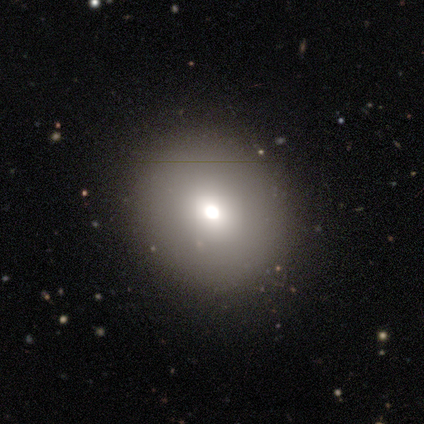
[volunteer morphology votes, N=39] Smooth or featured? 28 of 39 (72%) said smooth. How rounded? 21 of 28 (75%) said round. Merging? 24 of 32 (75%) said none.